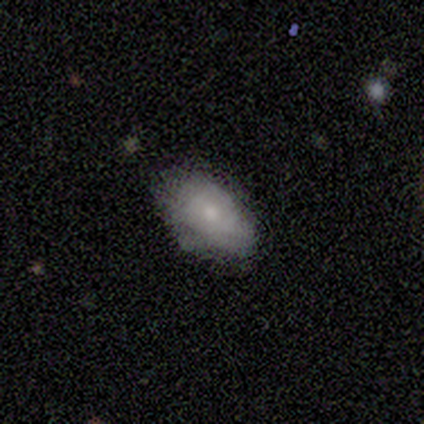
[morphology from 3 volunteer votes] smooth-or-featured: smooth: 100% | featured or disk: 0% | star or artifact: 0%
  how-rounded: in between: 100% | round: 0% | cigar-shaped: 0%
  merging: minor disturbance: 67% | none: 33% | major disturbance: 0% | merger: 0%